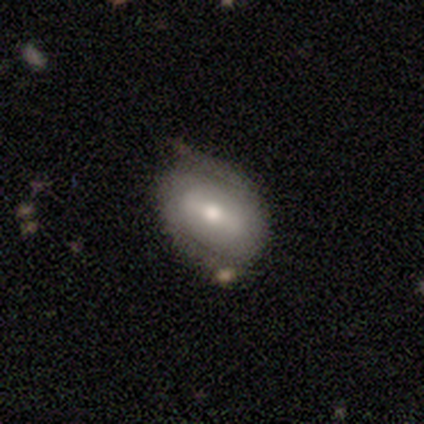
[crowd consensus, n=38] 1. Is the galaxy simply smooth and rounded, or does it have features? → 68% featured or disk, 29% smooth, 3% star or artifact.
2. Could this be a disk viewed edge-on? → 100% no, 0% yes.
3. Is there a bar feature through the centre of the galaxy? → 46% strong, 42% weak, 12% no.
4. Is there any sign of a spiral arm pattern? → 85% yes, 15% no.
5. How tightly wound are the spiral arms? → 50% tight, 27% loose, 23% medium.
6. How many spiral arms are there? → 91% 2, 5% 4, 5% can't tell, 0% 1, 0% 3, 0% more than 4.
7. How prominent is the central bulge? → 85% moderate, 12% small, 4% large, 0% dominant, 0% none.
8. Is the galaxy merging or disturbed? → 51% none, 22% minor disturbance, 8% merger, 0% major disturbance.